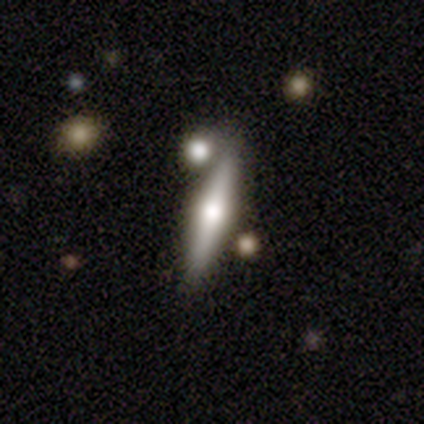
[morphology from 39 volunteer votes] Q: Smooth or featured?
A: featured or disk (64%); runner-up: smooth (31%)
Q: Edge-on disk?
A: yes (84%); runner-up: no (16%)
Q: Edge-on bulge?
A: rounded (100%)
Q: Merging?
A: none (70%); runner-up: merger (16%)